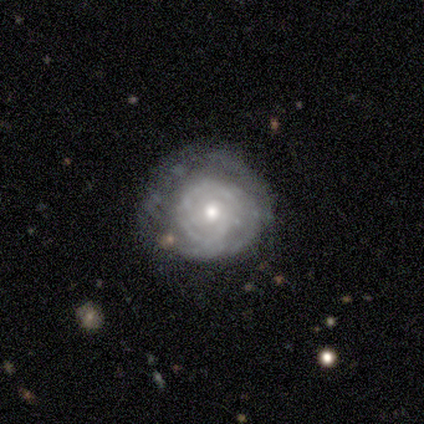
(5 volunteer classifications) A featured or disk galaxy (80%) with no bar (100%), tight (67%) spiral arms (75%) and a moderate central bulge (75%).

Vote fractions:
- Smooth or featured? featured or disk: 80% / smooth: 20% / star or artifact: 0%
- Edge-on disk? no: 100% / yes: 0%
- Bar? no: 100% / strong: 0% / weak: 0%
- Spiral arms? yes: 75% / no: 25%
- Spiral winding? tight: 67% / medium: 33% / loose: 0%
- Spiral arm count? can't tell: 100% / 1: 0% / 2: 0% / 3: 0% / 4: 0% / more than 4: 0%
- Bulge size? moderate: 75% / small: 25% / dominant: 0% / large: 0% / none: 0%
- Merging? minor disturbance: 60% / none: 40% / major disturbance: 0% / merger: 0%